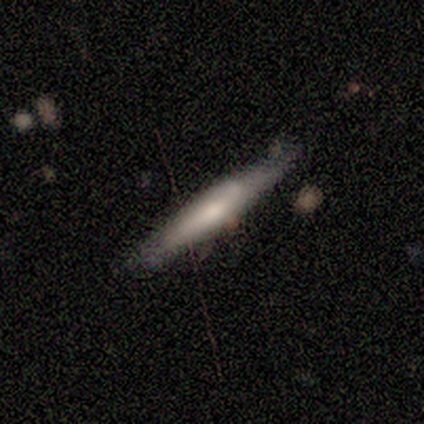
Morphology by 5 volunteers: A featured or disk galaxy (80%) viewed edge-on (100%) with no central bulge (75%). Merging: none (60%).